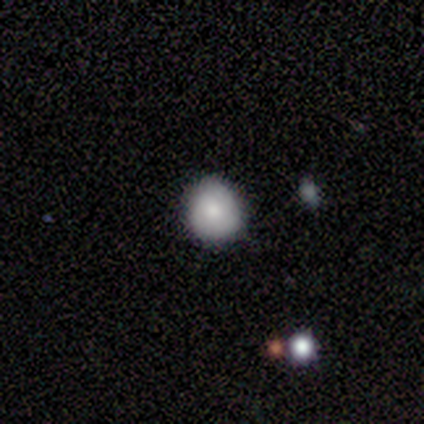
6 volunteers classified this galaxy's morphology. Overall: smooth (83%). How rounded: round (100%). Merging: none (83%).